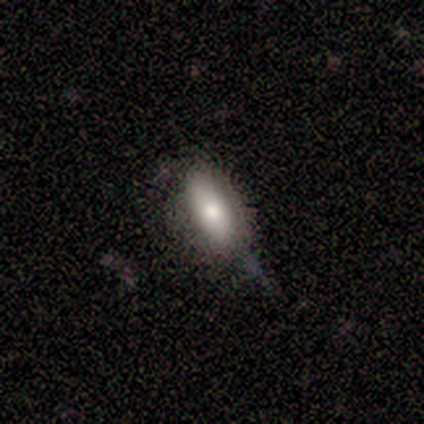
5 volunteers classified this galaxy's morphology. This appears to be a smooth galaxy with no disk features (80%) that is in between round and cigar-shaped (100%). Merging: none (75%).